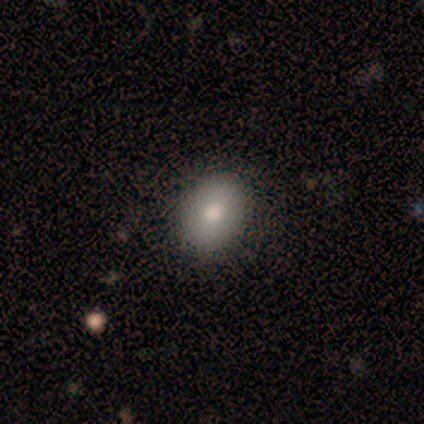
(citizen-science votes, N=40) smooth-or-featured: smooth: 78% | featured or disk: 12% | star or artifact: 10%
  how-rounded: in between: 81% | round: 19% | cigar-shaped: 0%
  merging: none: 72% | minor disturbance: 3% | merger: 3% | major disturbance: 0%